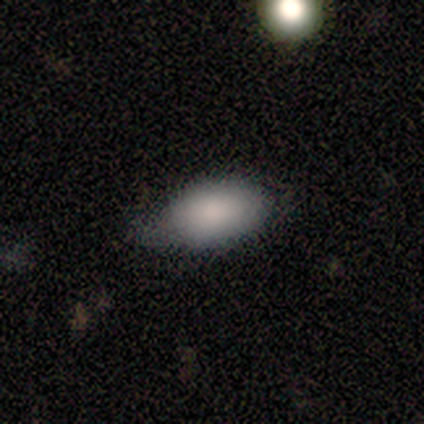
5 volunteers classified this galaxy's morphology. smooth_or_featured: smooth (p=1.00)
how_rounded: in between (p=0.80) [alt: cigar-shaped p=0.20]
merging: none (p=0.60) [alt: minor disturbance p=0.40]